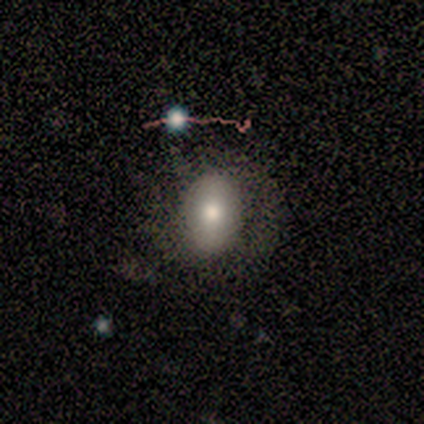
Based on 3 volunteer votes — This appears to be a smooth galaxy with no disk features (33%, tied with featured or disk and star or artifact) that is in between round and cigar-shaped (100%). Merging: minor disturbance (50%, tied with major disturbance).